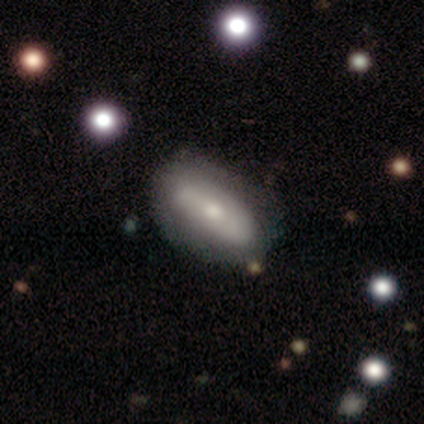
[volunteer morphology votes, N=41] Q: Smooth or featured?
A: smooth (51%); runner-up: featured or disk (46%)
Q: How rounded?
A: in between (86%); runner-up: cigar-shaped (10%)
Q: Merging?
A: none (70%); runner-up: minor disturbance (15%)